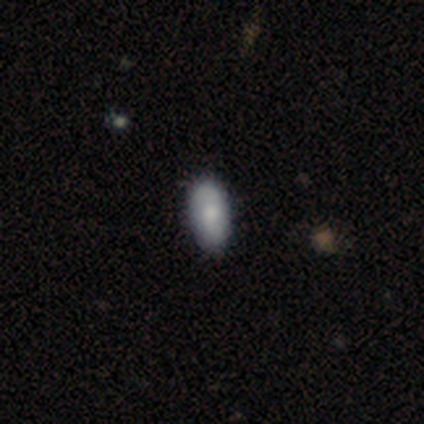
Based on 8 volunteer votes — Smooth or featured? smooth (75%)
How rounded? in between (100%)
Merging? none (88%)